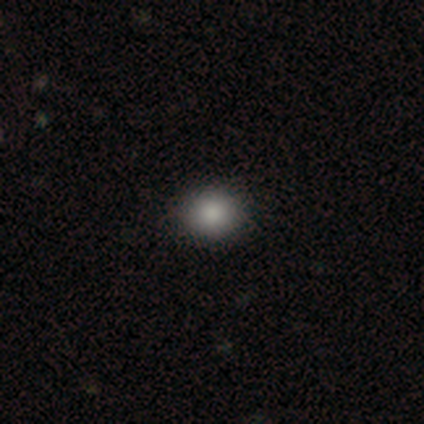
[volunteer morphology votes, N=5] Smooth or featured? smooth (60%)
How rounded? round (100%)
Merging? none (100%)